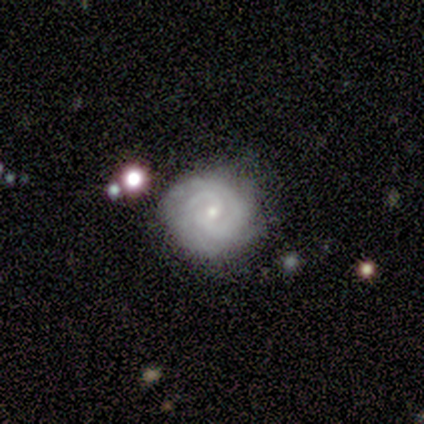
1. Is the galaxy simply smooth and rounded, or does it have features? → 100% featured or disk, 0% smooth, 0% star or artifact.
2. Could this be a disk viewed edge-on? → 100% no, 0% yes.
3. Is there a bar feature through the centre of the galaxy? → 67% no, 33% weak, 0% strong.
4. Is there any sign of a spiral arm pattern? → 100% yes, 0% no.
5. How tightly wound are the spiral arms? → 100% tight, 0% medium, 0% loose.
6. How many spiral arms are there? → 67% 2, 33% 3, 0% 1, 0% 4, 0% more than 4, 0% can't tell.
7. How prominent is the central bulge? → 67% small, 33% moderate, 0% dominant, 0% large, 0% none.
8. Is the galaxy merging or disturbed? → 83% none, 17% minor disturbance, 0% major disturbance, 0% merger.